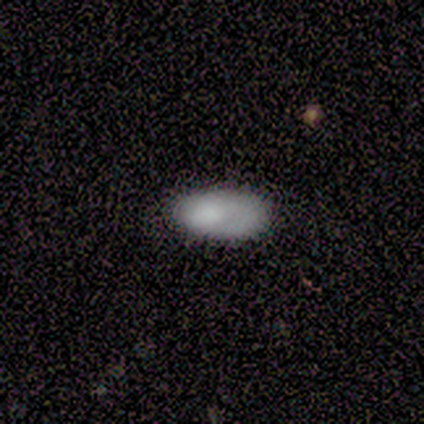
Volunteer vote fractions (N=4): smooth 75%, featured or disk 25%, star or artifact 0%. Down the decision tree: how rounded — in between (100%); merging — none (75%).